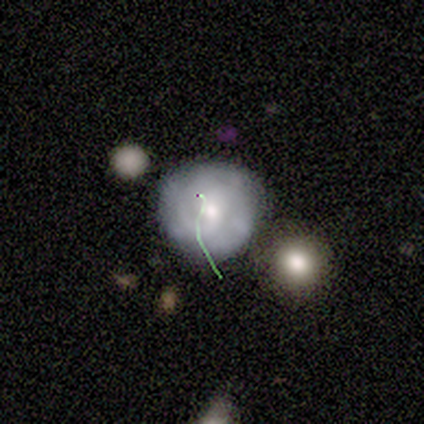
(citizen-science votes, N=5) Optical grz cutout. It shows a smooth galaxy with no disk features (40%, tied with featured or disk) that is round (100%). Merging: none (100%).